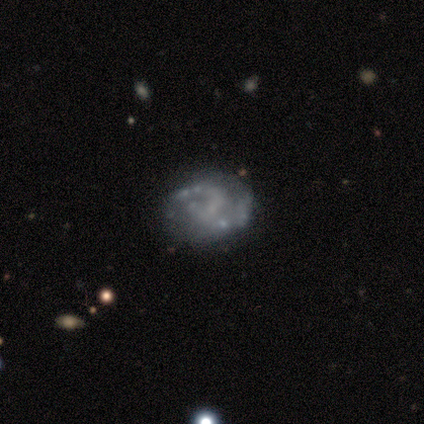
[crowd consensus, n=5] This appears to be a featured or disk galaxy (80%) with a weak bar (100%), 2 (100%) tight (100%) spiral arms (75%) and a small central bulge (75%). Merging: none (100%).